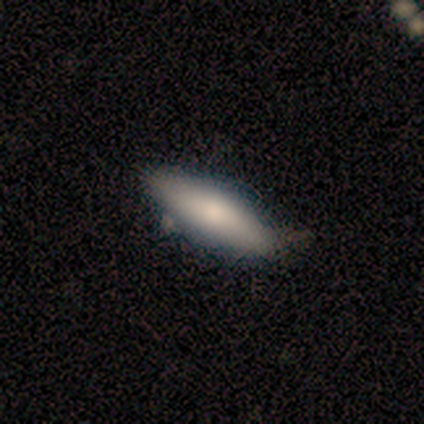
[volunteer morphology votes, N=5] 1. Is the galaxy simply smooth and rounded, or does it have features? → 80% smooth, 20% star or artifact, 0% featured or disk.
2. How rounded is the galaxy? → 75% cigar-shaped, 25% in between, 0% round.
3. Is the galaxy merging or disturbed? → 75% none, 25% minor disturbance, 0% major disturbance, 0% merger.